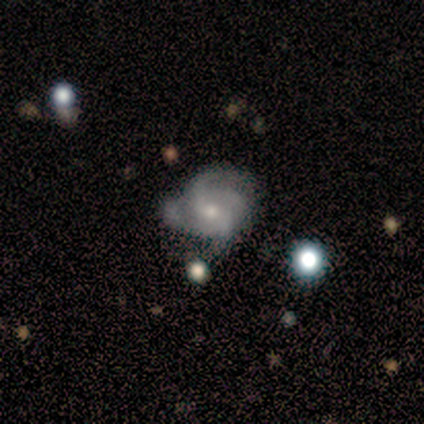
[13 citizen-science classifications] This appears to be a featured or disk galaxy (92%) with no bar (75%), 4 (45%) medium (64%) spiral arms (92%) and a moderate central bulge (50%, tied with small). Merging: none (42%).